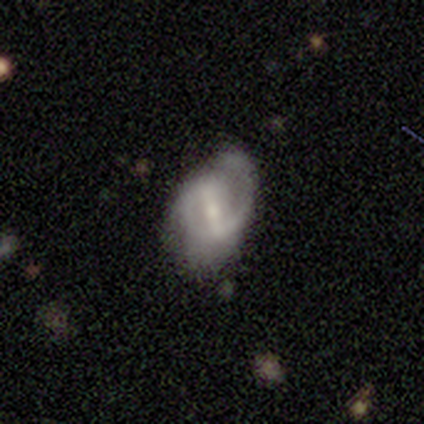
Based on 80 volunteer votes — Volunteers were most divided on "merging": minor disturbance: 41%, none: 36%, major disturbance: 17%, merger: 5%. More confident: edge-on disk — no (96%); spiral arms — yes (84%); smooth or featured — featured or disk (84%); bar — strong (70%); spiral arm count — 2 (69%); bulge size — moderate (55%); spiral winding — medium (52%).